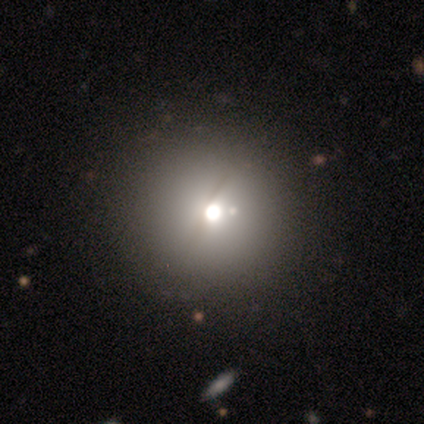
Smooth or featured? smooth (60%)
How rounded? round (100%)
Merging? none (80%)